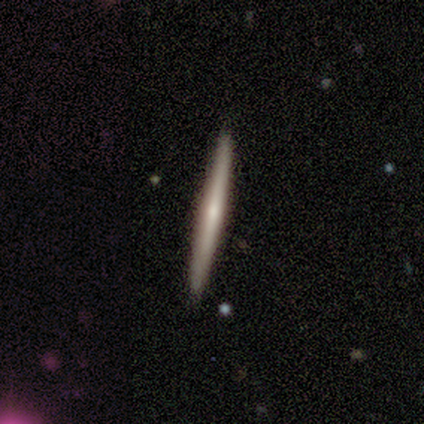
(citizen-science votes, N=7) smooth 71%, featured or disk 29%, star or artifact 0%. Down the decision tree: how rounded — cigar-shaped (100%); merging — none (100%).